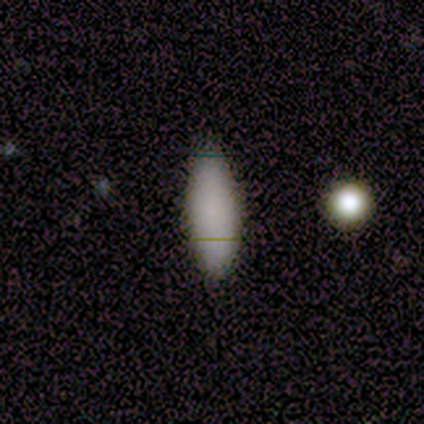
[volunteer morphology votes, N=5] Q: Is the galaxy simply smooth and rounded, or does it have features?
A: smooth — 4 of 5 (80%).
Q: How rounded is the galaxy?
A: in between — 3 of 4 (75%).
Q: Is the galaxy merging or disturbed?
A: none — 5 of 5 (100%).